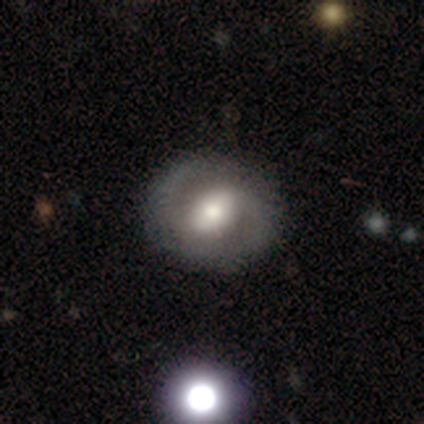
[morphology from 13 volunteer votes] Smooth or featured?
  - featured or disk: 77% *
  - smooth: 23%
  - star or artifact: 0%
Edge-on disk?
  - no: 100% *
  - yes: 0%
Bar?
  - weak: 60% *
  - strong: 20%
  - no: 20%
Spiral arms?
  - yes: 90% *
  - no: 10%
Spiral winding?
  - loose: 44% *
  - medium: 33%
  - tight: 22%
Spiral arm count?
  - 2: 89% *
  - 1: 11%
  - 3: 0%
  - 4: 0%
  - more than 4: 0%
  - can't tell: 0%
Bulge size?
  - moderate: 70% *
  - small: 20%
  - large: 10%
  - dominant: 0%
  - none: 0%
Merging?
  - none: 85% *
  - minor disturbance: 15%
  - major disturbance: 0%
  - merger: 0%